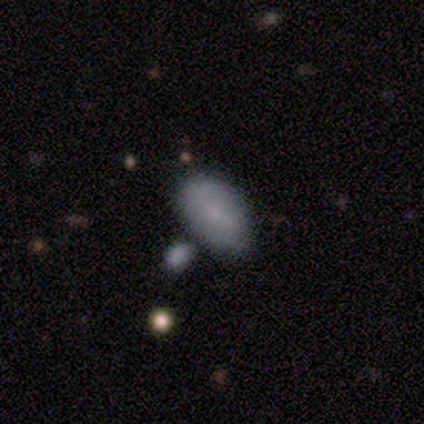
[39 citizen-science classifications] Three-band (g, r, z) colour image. It shows a smooth galaxy with no disk features (82%) that is in between round and cigar-shaped (97%). Merging: merger (56%).